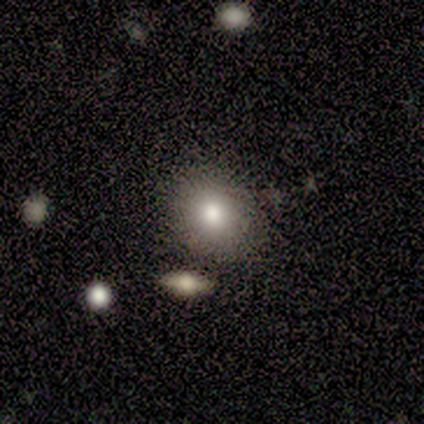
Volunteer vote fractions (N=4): Volunteers were most divided on "how rounded": round: 67%, in between: 33%, cigar-shaped: 0%. More confident: merging — none (100%); smooth or featured — smooth (75%).